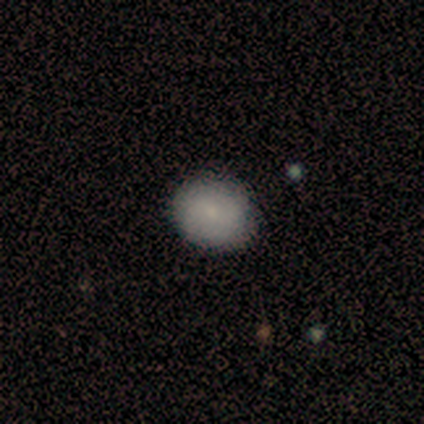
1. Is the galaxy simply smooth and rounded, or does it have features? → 100% smooth, 0% featured or disk, 0% star or artifact.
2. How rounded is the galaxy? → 78% round, 22% in between, 0% cigar-shaped.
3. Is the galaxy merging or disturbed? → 100% none, 0% minor disturbance, 0% major disturbance, 0% merger.